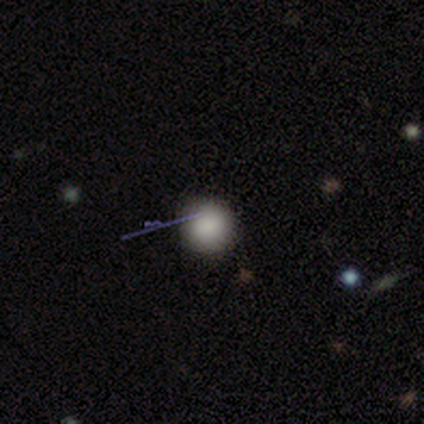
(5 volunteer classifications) Volunteers were most divided on "smooth or featured": smooth: 80%, star or artifact: 20%, featured or disk: 0%. More confident: how rounded — round (100%); merging — none (100%).